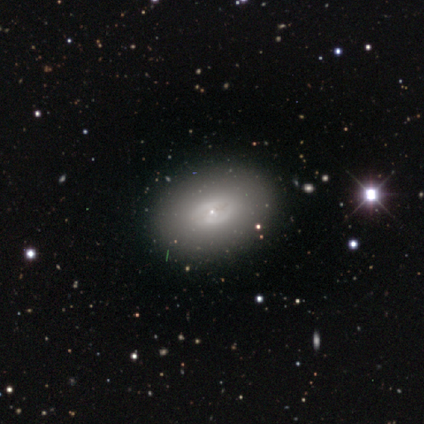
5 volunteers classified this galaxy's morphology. A smooth galaxy with no disk features (60%) that is in between round and cigar-shaped (100%).

Vote fractions:
- Smooth or featured? smooth: 60% / featured or disk: 40% / star or artifact: 0%
- How rounded? in between: 100% / round: 0% / cigar-shaped: 0%
- Merging? none: 80% / major disturbance: 20% / minor disturbance: 0% / merger: 0%